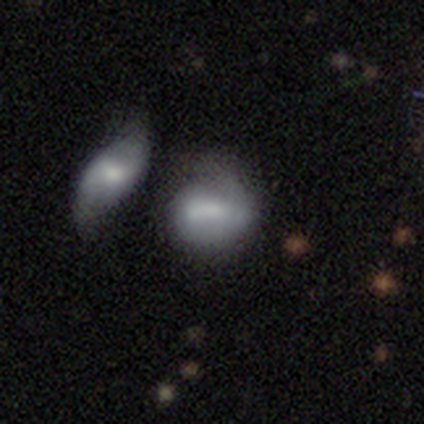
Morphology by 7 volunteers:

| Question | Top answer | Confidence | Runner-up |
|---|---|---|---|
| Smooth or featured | smooth | 86% | featured or disk (14%) |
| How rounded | in between | 67% | round (33%) |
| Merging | merger | 57% | none (29%) |